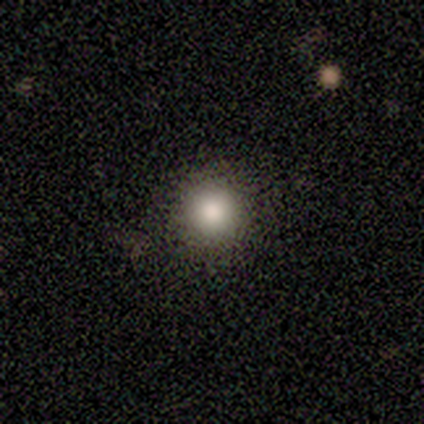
Smooth or featured? smooth (100%)
How rounded? round (80%)
Merging? none (60%)